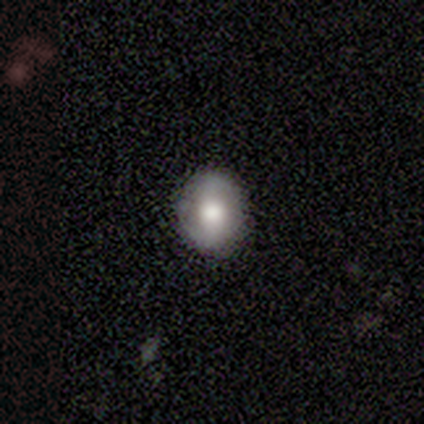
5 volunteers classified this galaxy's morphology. smooth-or-featured: smooth: 60% | featured or disk: 40% | star or artifact: 0%
  how-rounded: in between: 67% | round: 33% | cigar-shaped: 0%
  merging: none: 80% | minor disturbance: 20% | major disturbance: 0% | merger: 0%